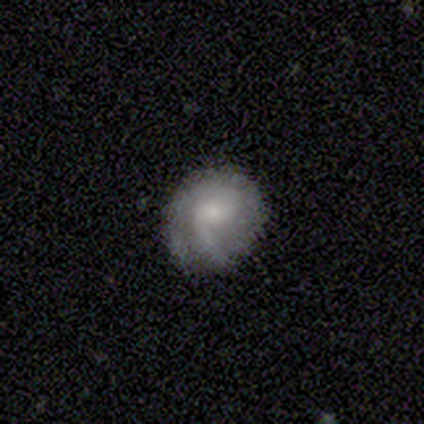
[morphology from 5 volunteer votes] Smooth or featured? featured or disk (100%)
Edge-on disk? no (100%)
Bar? no (60%)
Spiral arms? yes (100%)
Spiral winding? loose (80%)
Spiral arm count? 1 (60%)
Bulge size? moderate (60%)
Merging? none (100%)